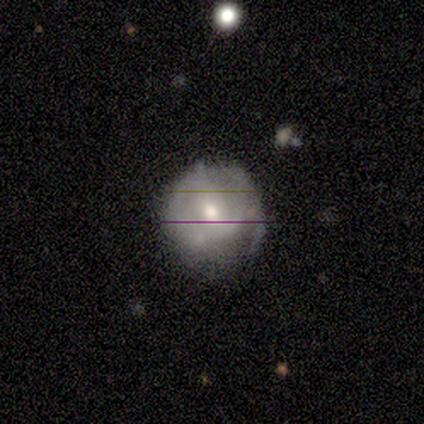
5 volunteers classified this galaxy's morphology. This appears to be a smooth galaxy with no disk features (80%) that is round (75%). Merging: minor disturbance (50%, tied with major disturbance).